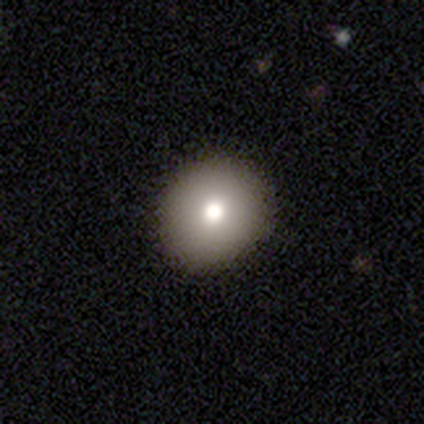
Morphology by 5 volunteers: smooth-or-featured: smooth: 60% | featured or disk: 20% | star or artifact: 20%
  how-rounded: in between: 67% | round: 33% | cigar-shaped: 0%
  merging: none: 100% | minor disturbance: 0% | major disturbance: 0% | merger: 0%